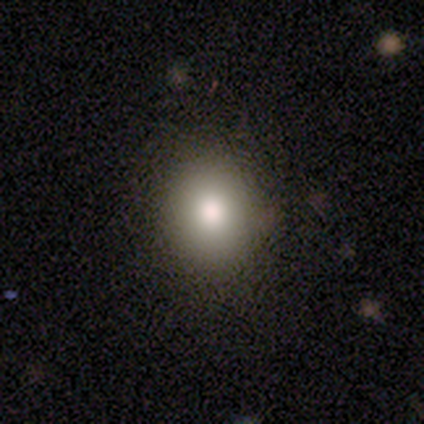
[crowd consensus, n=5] Smooth or featured: smooth — 40% (tied with featured or disk — 40%)
How rounded: in between — 100%
Merging: none — 75% (minor disturbance — 25%)